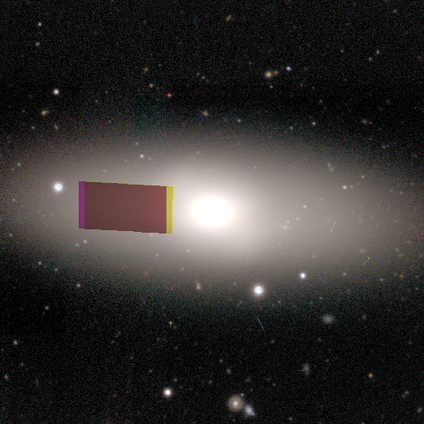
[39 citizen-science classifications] Smooth or featured: smooth — 41% (star or artifact — 33%)
How rounded: in between — 88% (cigar-shaped — 12%)
Merging: none — 85% (minor disturbance — 12%)